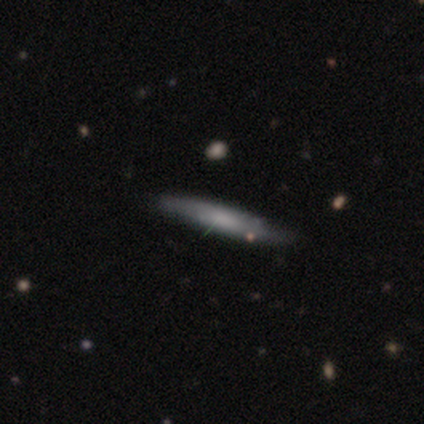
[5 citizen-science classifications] Smooth or featured? 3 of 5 (60%) said smooth. How rounded? 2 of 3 (67%) said cigar-shaped. Merging? 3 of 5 (60%) said none.